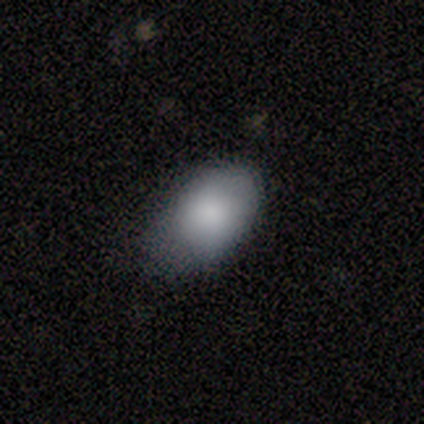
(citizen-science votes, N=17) Overall: smooth (88%). How rounded: in between (93%). Merging: none (53%; minor disturbance 47%).